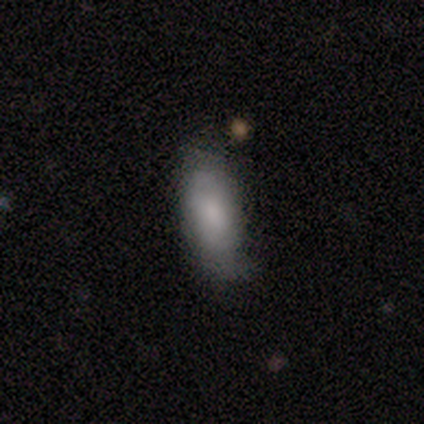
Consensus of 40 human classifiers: smooth_or_featured: smooth (p=0.78) [alt: featured or disk p=0.15]
how_rounded: cigar-shaped (p=0.52) [alt: in between p=0.45]
merging: none (p=0.65) [alt: minor disturbance p=0.24]